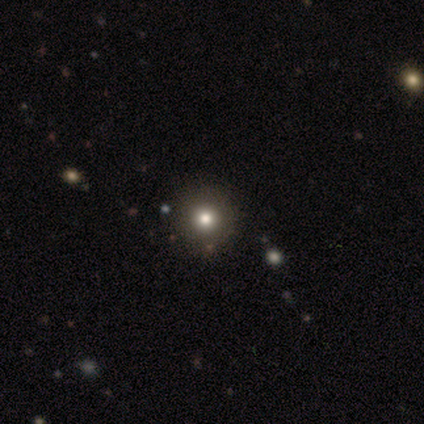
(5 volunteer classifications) A smooth galaxy with no disk features (40%, tied with star or artifact) that is round (100%).

Vote fractions:
- Smooth or featured? smooth: 40% (tied) / star or artifact: 40% (tied) / featured or disk: 20%
- How rounded? round: 100% / in between: 0% / cigar-shaped: 0%
- Merging? none: 100% / minor disturbance: 0% / major disturbance: 0% / merger: 0%